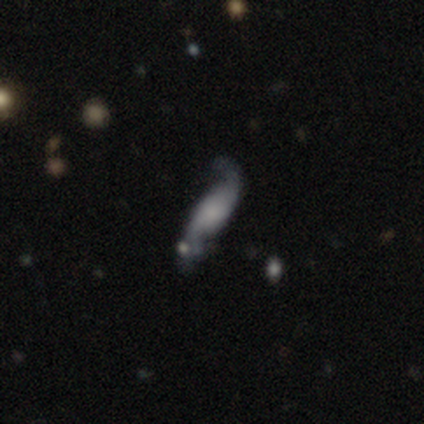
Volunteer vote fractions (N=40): smooth_or_featured: featured or disk (p=0.70) [alt: smooth p=0.23]
disk_edge_on: no (p=0.89) [alt: yes p=0.11]
bar: no (p=0.80) [alt: weak p=0.16]
has_spiral_arms: yes (p=1.00)
spiral_winding: loose (p=0.84) [alt: medium p=0.12]
spiral_arm_count: 2 (p=0.92) [alt: can't tell p=0.08]
bulge_size: small (p=0.44) [alt: none p=0.36]
merging: none (p=0.57) [alt: minor disturbance p=0.19]